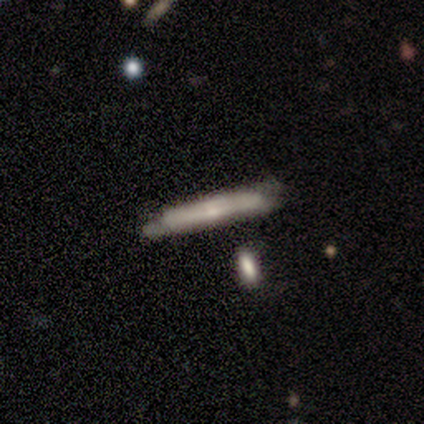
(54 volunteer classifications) Smooth or featured: featured or disk — 61% (smooth — 31%)
Edge-on disk: yes — 97% (no — 3%)
Edge-on bulge: boxy — 47% (rounded — 31%)
Merging: none — 58% (minor disturbance — 26%)